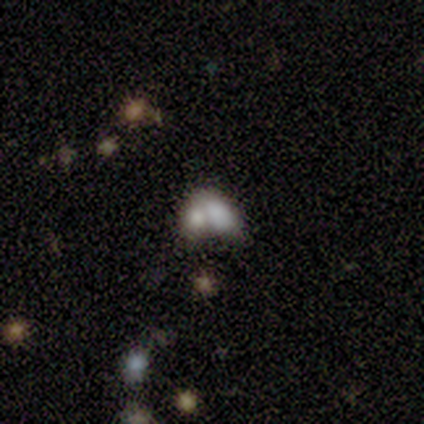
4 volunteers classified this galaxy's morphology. Smooth or featured: smooth — 50% (tied with featured or disk — 50%)
How rounded: in between — 100%
Merging: merger — 50% (none — 25%)